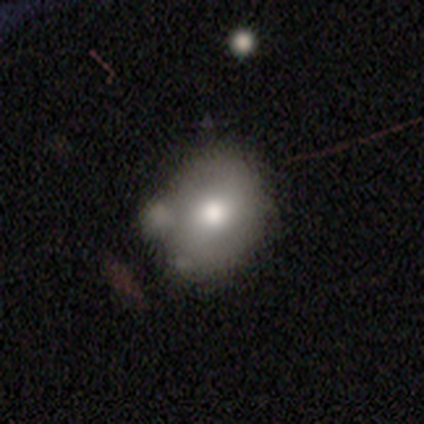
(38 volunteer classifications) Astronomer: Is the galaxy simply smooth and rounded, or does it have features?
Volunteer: smooth — 66%.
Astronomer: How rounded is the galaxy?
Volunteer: round — 52% (runner-up: in between, 48%).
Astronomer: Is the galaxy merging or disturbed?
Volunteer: none — 46% (runner-up: minor disturbance, 26%).